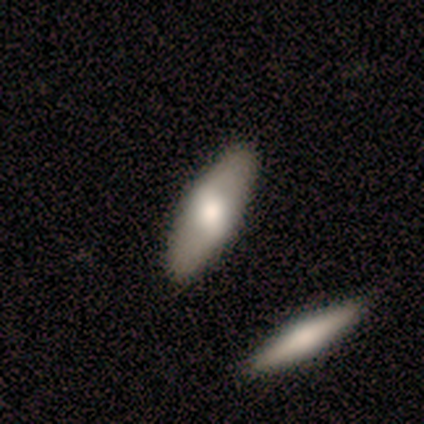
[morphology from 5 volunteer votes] This is marginally a smooth galaxy (40%, tied with featured or disk). How rounded: clearly in between (100%). Merging: possibly none (50%, tied with merger).